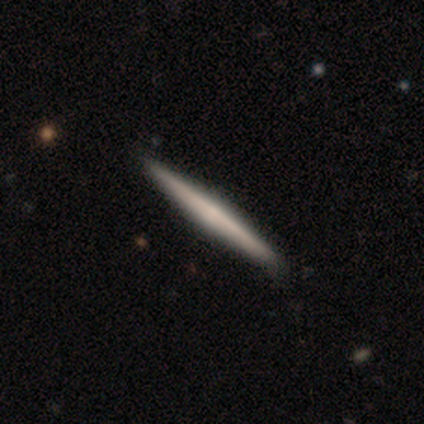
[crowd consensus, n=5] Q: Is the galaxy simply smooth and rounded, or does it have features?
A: featured or disk — 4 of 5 (80%).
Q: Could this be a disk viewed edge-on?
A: yes — 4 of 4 (100%).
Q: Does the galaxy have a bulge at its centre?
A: none — 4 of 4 (100%).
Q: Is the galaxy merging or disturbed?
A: none — 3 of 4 (75%).